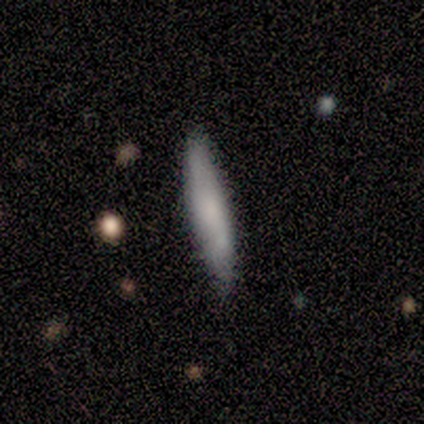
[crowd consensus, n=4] This appears to be a smooth galaxy with no disk features (50%, tied with featured or disk) that is cigar-shaped (100%). Merging: none (75%).